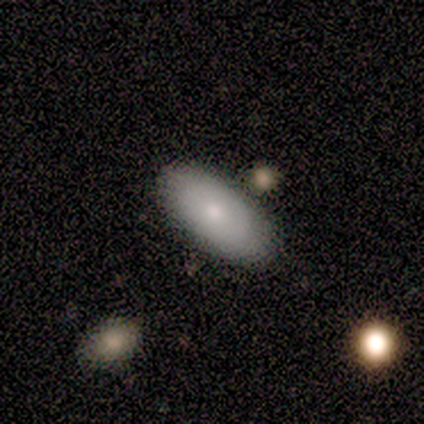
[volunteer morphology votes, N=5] Smooth or featured: smooth — 60% (featured or disk — 20%)
How rounded: in between — 100%
Merging: none — 75% (merger — 25%)